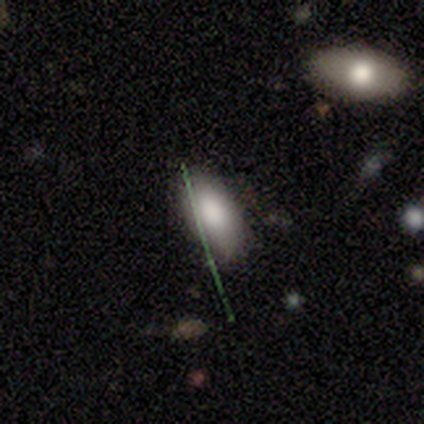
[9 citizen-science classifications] A smooth galaxy with no disk features (89%) that is in between round and cigar-shaped (88%).

Vote fractions:
- Smooth or featured? smooth: 89% / star or artifact: 11% / featured or disk: 0%
- How rounded? in between: 88% / cigar-shaped: 12% / round: 0%
- Merging? none: 100% / minor disturbance: 0% / major disturbance: 0% / merger: 0%